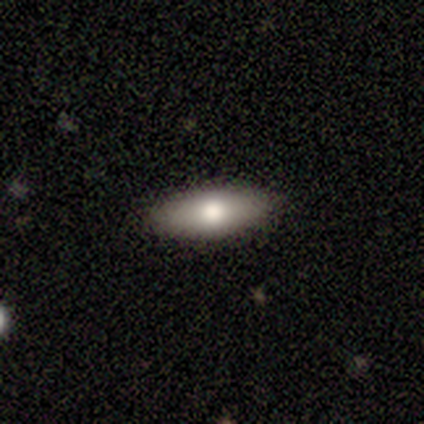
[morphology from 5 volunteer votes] Overall: featured or disk (60%; smooth 40%). Edge-on disk: yes (67%; no 33%). Edge-on bulge: rounded (100%). Merging: none (100%).